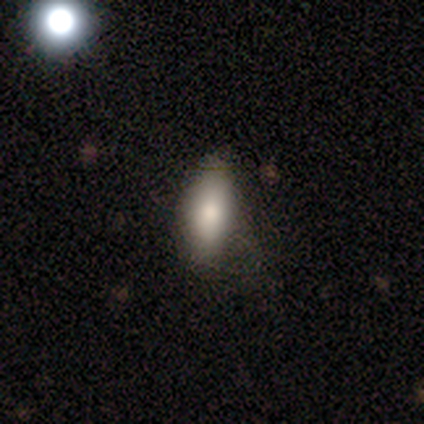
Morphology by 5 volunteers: Q: Smooth or featured?
A: smooth (100%)
Q: How rounded?
A: in between (100%)
Q: Merging?
A: none (80%); runner-up: major disturbance (20%)